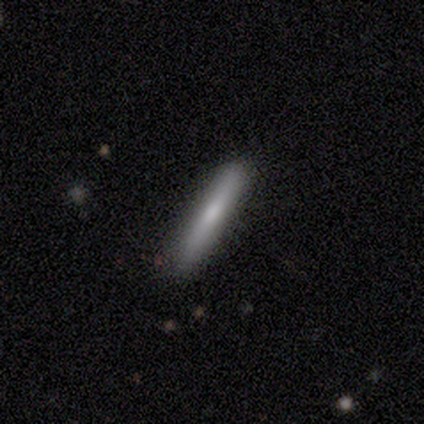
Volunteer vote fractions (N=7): A smooth galaxy with no disk features (86%) that is cigar-shaped (83%).

Vote fractions:
- Smooth or featured? smooth: 86% / featured or disk: 14% / star or artifact: 0%
- How rounded? cigar-shaped: 83% / in between: 17% / round: 0%
- Merging? none: 100% / minor disturbance: 0% / major disturbance: 0% / merger: 0%